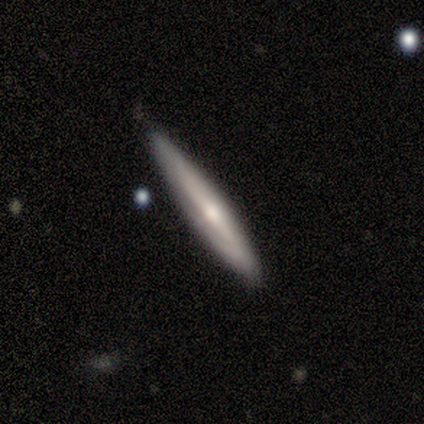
A featured or disk galaxy (80%) viewed edge-on (100%) with a rounded central bulge (75%). Merging: none (60%).